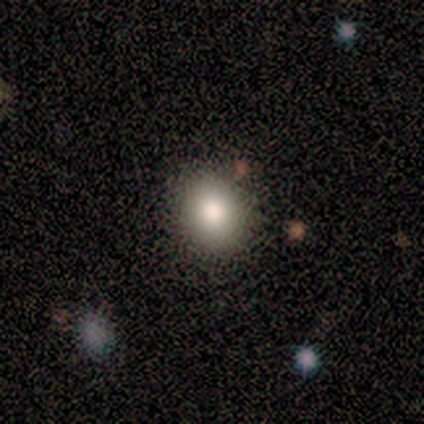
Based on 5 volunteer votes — Morphology: type=smooth (60%); roundness=round (67%); merging=none (50%).